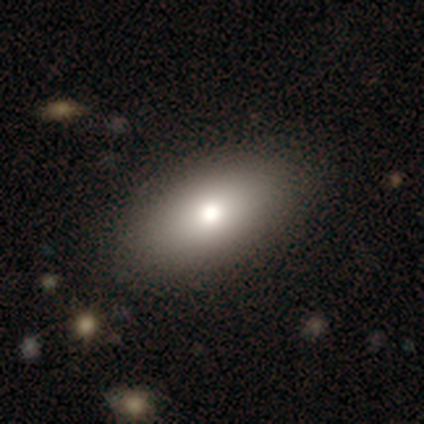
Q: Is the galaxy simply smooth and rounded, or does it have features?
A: smooth — 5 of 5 (100%).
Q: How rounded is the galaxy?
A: in between — 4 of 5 (80%).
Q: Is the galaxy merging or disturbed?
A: none — 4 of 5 (80%).